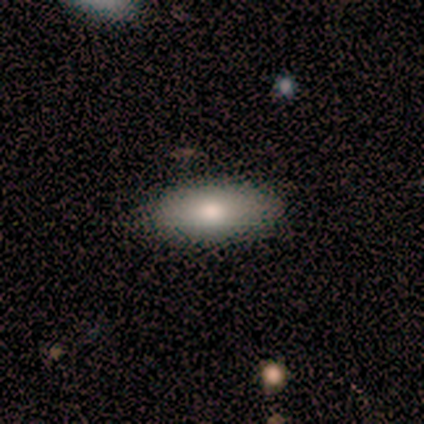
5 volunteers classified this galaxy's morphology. smooth 80%, featured or disk 20%, star or artifact 0%. Down the decision tree: how rounded — in between (100%); merging — none (60%).